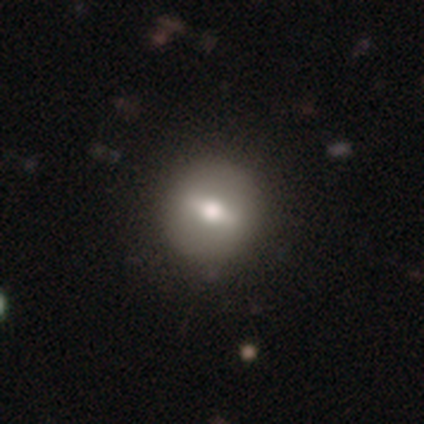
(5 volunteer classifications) Smooth or featured: featured or disk — 80% (smooth — 20%)
Edge-on disk: no — 75% (yes — 25%)
Bar: strong — 67% (weak — 33%)
Spiral arms: no — 100%
Bulge size: moderate — 100%
Merging: none — 100%